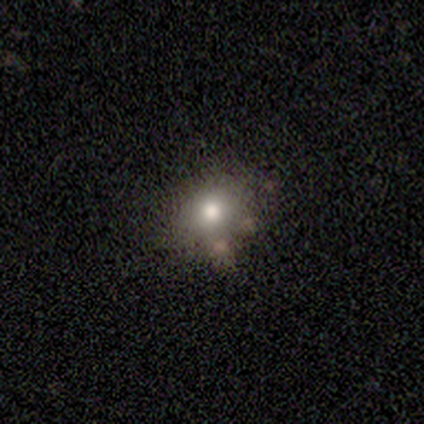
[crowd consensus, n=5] Smooth or featured?
  - smooth: 80% *
  - featured or disk: 20%
  - star or artifact: 0%
How rounded?
  - round: 75% *
  - in between: 25%
  - cigar-shaped: 0%
Merging?
  - minor disturbance: 40% * (tied)
  - merger: 40% * (tied)
  - none: 20%
  - major disturbance: 0%